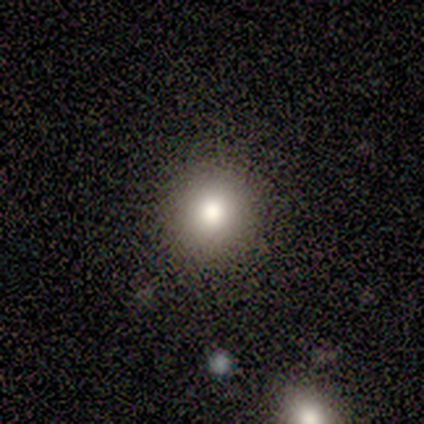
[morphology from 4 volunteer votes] This appears to be a smooth galaxy with no disk features (50%) that is round (100%). Merging: none (100%).